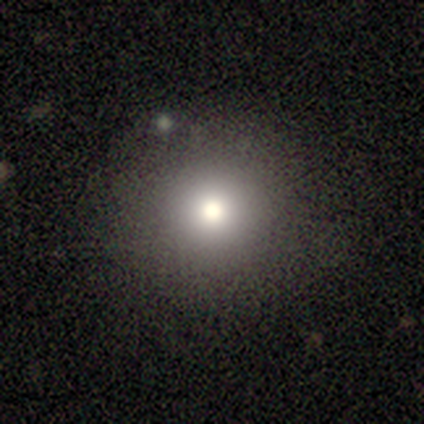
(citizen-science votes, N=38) A smooth galaxy with no disk features (68%) that is round (100%). Merging: none (84%).